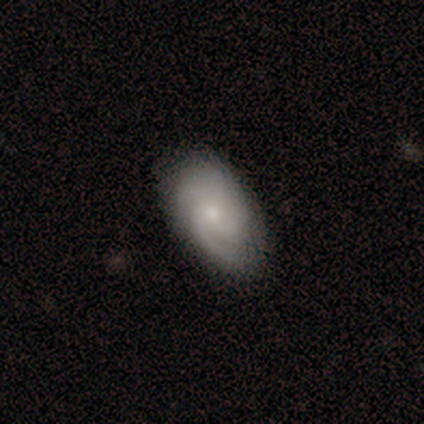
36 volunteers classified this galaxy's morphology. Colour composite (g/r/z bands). It shows a featured or disk galaxy (67%) with no bar (100%), medium (50%) spiral arms (92%) and a small central bulge (75%). Merging: none (92%).